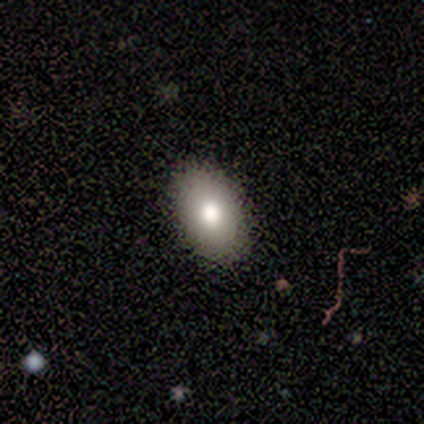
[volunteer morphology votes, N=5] This appears to be a smooth galaxy with no disk features (80%) that is in between round and cigar-shaped (75%). Merging: none (100%).